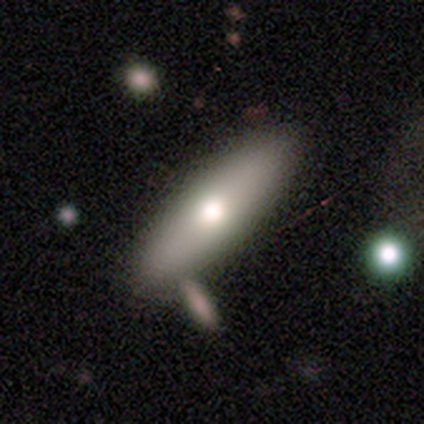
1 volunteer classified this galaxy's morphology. Smooth or featured? 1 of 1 (100%) said smooth. How rounded? 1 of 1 (100%) said cigar-shaped. Merging? 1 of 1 (100%) said none.